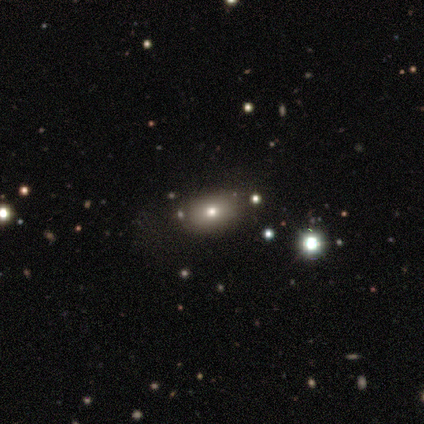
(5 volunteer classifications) A smooth galaxy with no disk features (40%, tied with featured or disk) that is in between round and cigar-shaped (100%).

Vote fractions:
- Smooth or featured? smooth: 40% (tied) / featured or disk: 40% (tied) / star or artifact: 20%
- How rounded? in between: 100% / round: 0% / cigar-shaped: 0%
- Merging? none: 100% / minor disturbance: 0% / major disturbance: 0% / merger: 0%